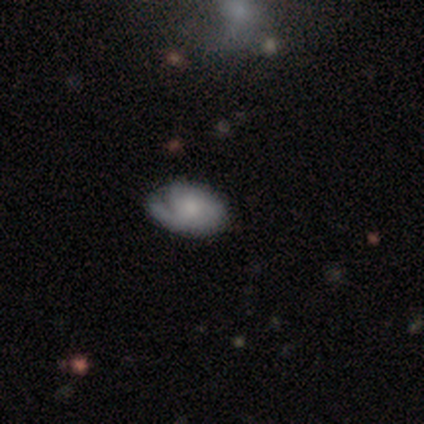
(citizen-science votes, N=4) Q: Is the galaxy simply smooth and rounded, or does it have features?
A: featured or disk — 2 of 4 (50%).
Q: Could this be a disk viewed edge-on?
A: no — 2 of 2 (100%).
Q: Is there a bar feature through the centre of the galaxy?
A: no — 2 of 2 (100%).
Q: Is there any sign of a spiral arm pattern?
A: yes — 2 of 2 (100%).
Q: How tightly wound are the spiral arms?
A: tight — 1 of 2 (50%, tied with medium).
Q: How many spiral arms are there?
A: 1 — 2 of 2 (100%).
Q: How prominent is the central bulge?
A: moderate — 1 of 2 (50%, tied with small).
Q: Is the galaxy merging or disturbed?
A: none — 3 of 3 (100%).